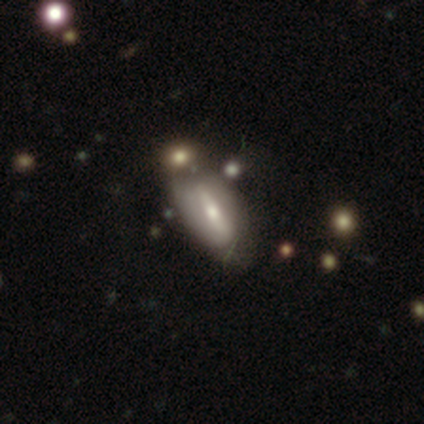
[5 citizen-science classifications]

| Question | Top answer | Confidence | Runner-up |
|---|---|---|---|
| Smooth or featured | featured or disk | 60% | smooth (40%) |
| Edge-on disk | no | 67% | yes (33%) |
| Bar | strong | 50% | tied: no (50%) |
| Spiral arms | yes | 50% | tied: no (50%) |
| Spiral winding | medium | 100% | — |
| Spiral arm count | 2 | 100% | — |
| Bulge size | moderate | 100% | — |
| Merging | minor disturbance | 60% | none (20%) |